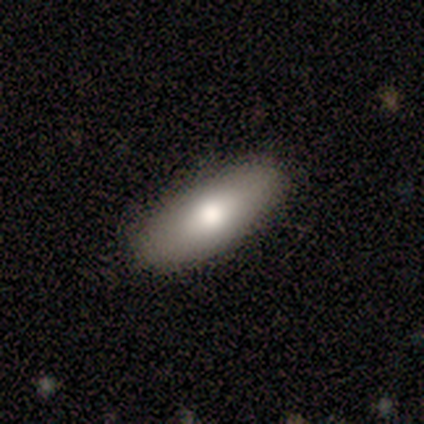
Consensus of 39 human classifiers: Morphology: type=smooth (72%); roundness=in between (68%); merging=none (92%).